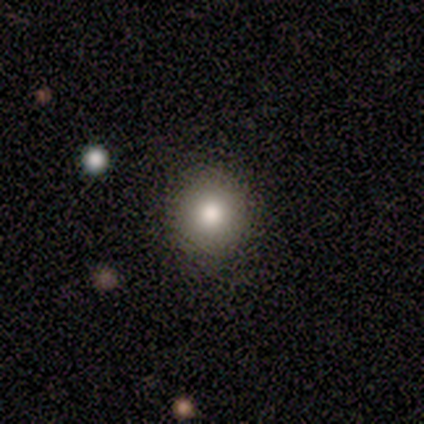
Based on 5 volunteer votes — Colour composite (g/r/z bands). It shows a smooth galaxy with no disk features (100%) that is round (100%). Merging: none (100%).